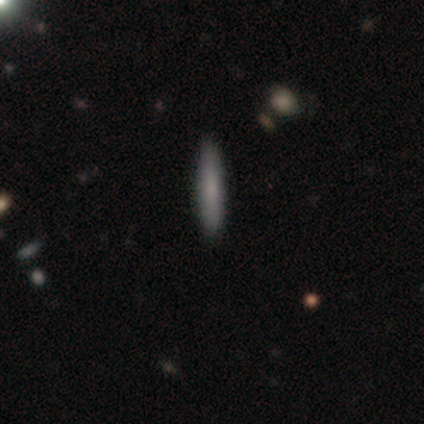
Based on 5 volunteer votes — Smooth or featured? smooth (80%)
How rounded? cigar-shaped (75%)
Merging? none (100%)